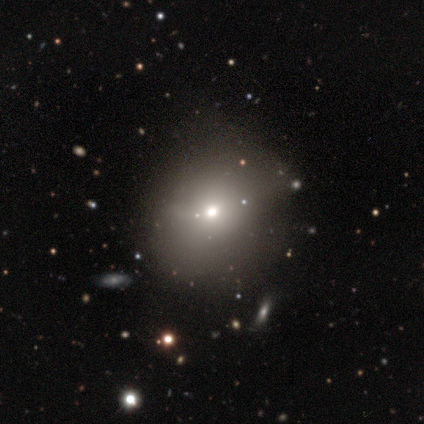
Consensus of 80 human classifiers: This appears to be a smooth galaxy with no disk features (62%) that is round (90%). Merging: none (37%).